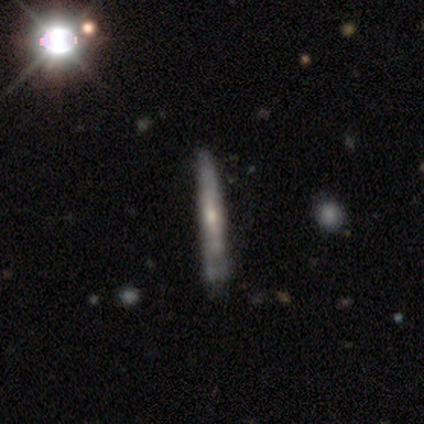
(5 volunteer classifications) A featured or disk galaxy (60%) viewed edge-on (100%) with a rounded central bulge (100%). Merging: minor disturbance (60%).